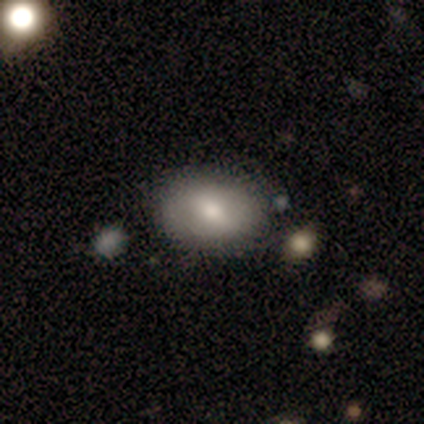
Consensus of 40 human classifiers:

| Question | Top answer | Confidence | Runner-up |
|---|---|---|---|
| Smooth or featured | smooth | 60% | featured or disk (32%) |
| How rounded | in between | 92% | round (8%) |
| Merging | none | 54% | merger (14%) |